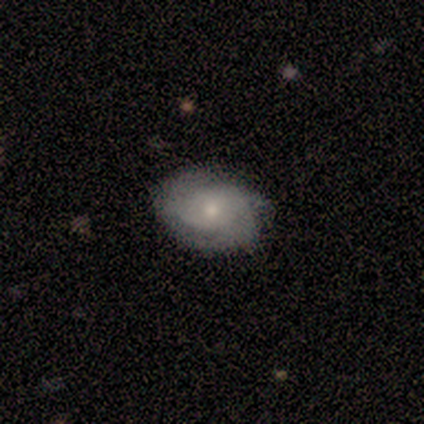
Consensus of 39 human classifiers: This appears to be a featured or disk galaxy (59%) with no bar (77%), 3 (31%) tight (50%) spiral arms (73%) and a small central bulge (59%). Merging: none (83%).